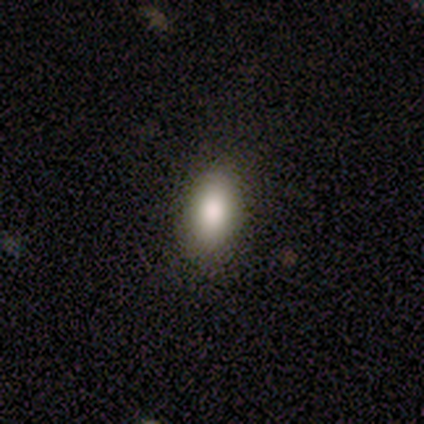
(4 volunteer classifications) Smooth or featured?
  - smooth: 100% *
  - featured or disk: 0%
  - star or artifact: 0%
How rounded?
  - in between: 100% *
  - round: 0%
  - cigar-shaped: 0%
Merging?
  - none: 100% *
  - minor disturbance: 0%
  - major disturbance: 0%
  - merger: 0%